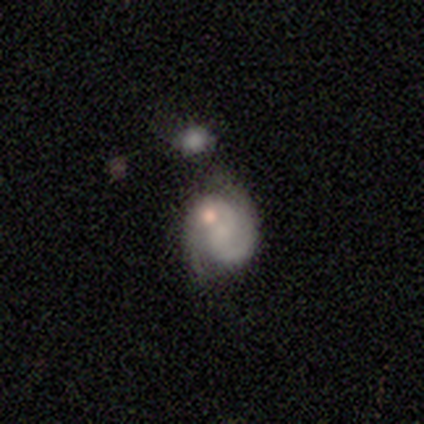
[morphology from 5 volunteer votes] smooth_or_featured: featured or disk (p=0.80) [alt: smooth p=0.20]
disk_edge_on: no (p=1.00)
bar: no (p=0.75) [alt: weak p=0.25]
has_spiral_arms: yes (p=1.00)
spiral_winding: tight (p=0.50) [alt: medium p=0.25]
spiral_arm_count: 2 (p=0.75) [alt: 1 p=0.25]
bulge_size: small (p=0.50) [tied with: none p=0.50]
merging: major disturbance (p=0.60) [alt: minor disturbance p=0.20]